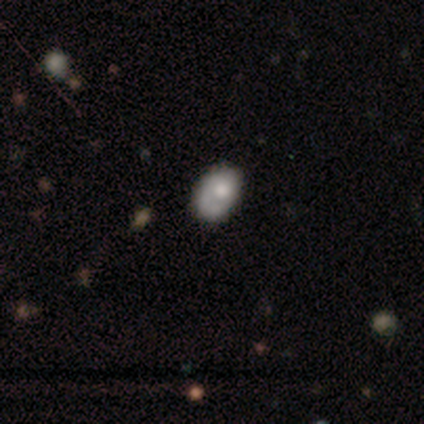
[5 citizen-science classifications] smooth_or_featured: smooth (p=0.80) [alt: featured or disk p=0.20]
how_rounded: in between (p=1.00)
merging: none (p=0.80) [alt: minor disturbance p=0.20]